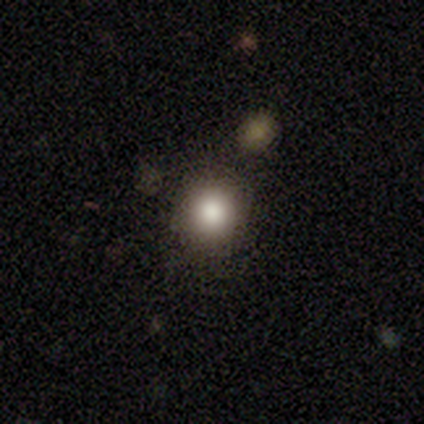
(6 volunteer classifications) smooth 67%, featured or disk 33%, star or artifact 0%. Down the decision tree: how rounded — round (100%); merging — none (83%).